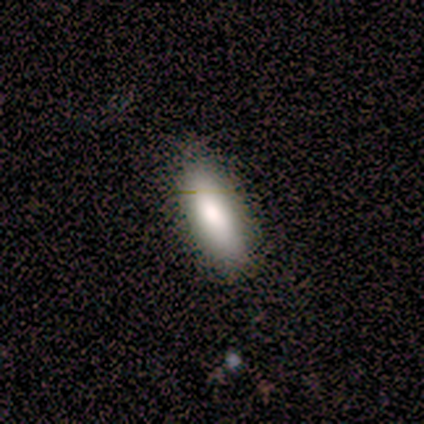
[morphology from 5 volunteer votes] type=smooth (80%); roundness=cigar-shaped (75%); merging=none (100%).